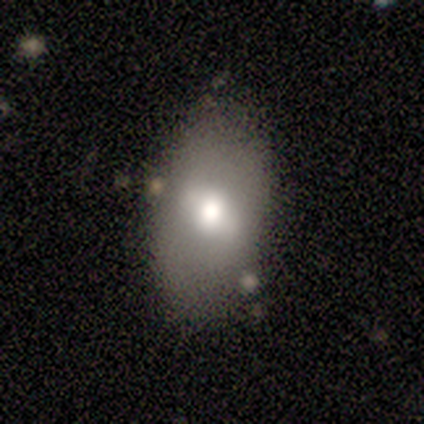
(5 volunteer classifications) Smooth or featured? 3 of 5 (60%) said smooth. How rounded? 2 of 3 (67%) said in between. Merging? 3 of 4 (75%) said minor disturbance.